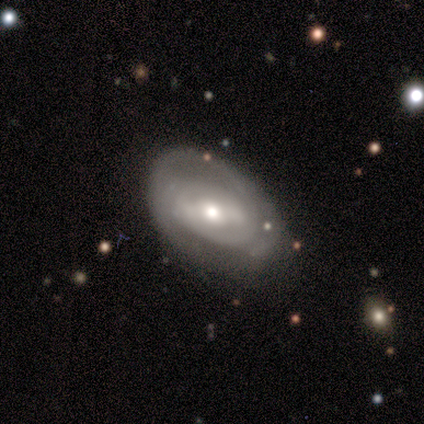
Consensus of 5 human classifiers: Smooth or featured?
  - featured or disk: 80% *
  - smooth: 20%
  - star or artifact: 0%
Edge-on disk?
  - no: 100% *
  - yes: 0%
Bar?
  - no: 50% *
  - strong: 25%
  - weak: 25%
Spiral arms?
  - yes: 75% *
  - no: 25%
Spiral winding?
  - tight: 67% *
  - medium: 33%
  - loose: 0%
Spiral arm count?
  - can't tell: 67% *
  - 1: 33%
  - 2: 0%
  - 3: 0%
  - 4: 0%
  - more than 4: 0%
Bulge size?
  - moderate: 75% *
  - small: 25%
  - dominant: 0%
  - large: 0%
  - none: 0%
Merging?
  - none: 100% *
  - minor disturbance: 0%
  - major disturbance: 0%
  - merger: 0%